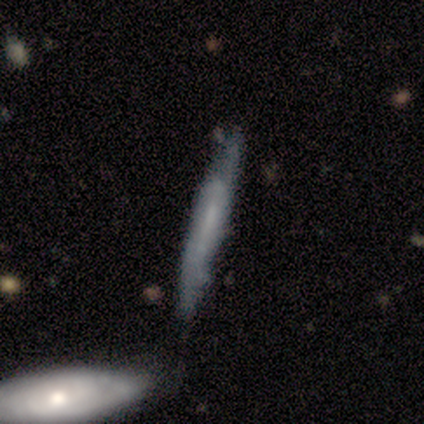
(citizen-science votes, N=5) Smooth or featured? smooth (60%)
How rounded? cigar-shaped (100%)
Merging? none (100%)